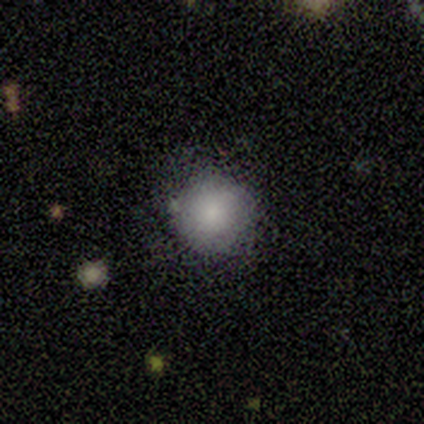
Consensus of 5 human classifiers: Overall: smooth (100%). How rounded: round (100%). Merging: none (100%).